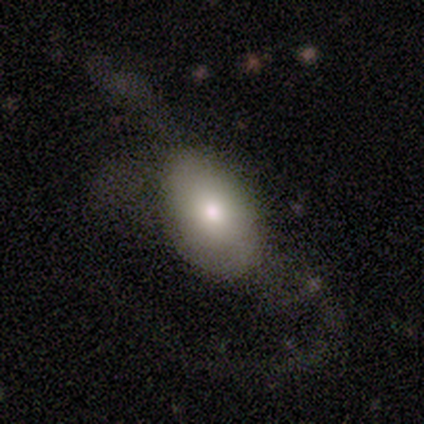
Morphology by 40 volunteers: type=smooth (62%); roundness=in between (100%); merging=none (41%, tied with major disturbance).